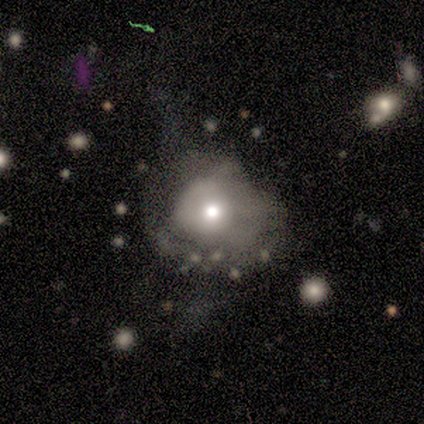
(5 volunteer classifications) featured or disk 60%, smooth 40%, star or artifact 0%. Down the decision tree: edge-on disk — no (100%); bar — no (100%); spiral arms — no (67%); bulge size — large (33%, tied with moderate and small); merging — none (40%, tied with major disturbance).